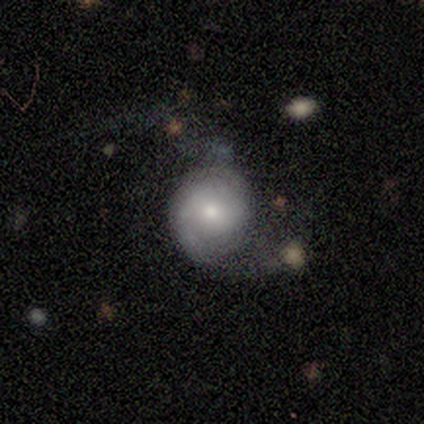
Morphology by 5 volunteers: Smooth or featured?
  - featured or disk: 100% *
  - smooth: 0%
  - star or artifact: 0%
Edge-on disk?
  - no: 100% *
  - yes: 0%
Bar?
  - no: 60% *
  - weak: 40%
  - strong: 0%
Spiral arms?
  - yes: 100% *
  - no: 0%
Spiral winding?
  - tight: 40% * (tied)
  - loose: 40% * (tied)
  - medium: 20%
Spiral arm count?
  - 2: 60% *
  - 1: 20%
  - can't tell: 20%
  - 3: 0%
  - 4: 0%
  - more than 4: 0%
Bulge size?
  - moderate: 60% *
  - small: 40%
  - dominant: 0%
  - large: 0%
  - none: 0%
Merging?
  - none: 60% *
  - major disturbance: 40%
  - minor disturbance: 0%
  - merger: 0%